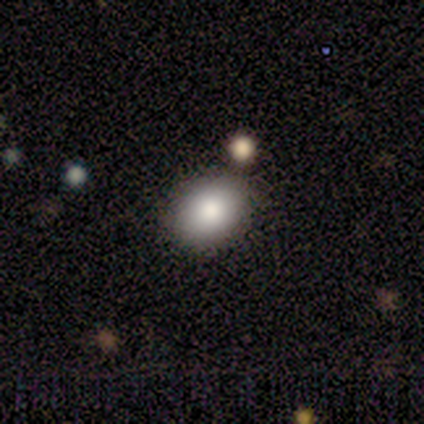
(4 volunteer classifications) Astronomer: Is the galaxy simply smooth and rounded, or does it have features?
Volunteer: smooth — 100%.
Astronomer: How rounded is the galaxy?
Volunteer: round — 50%, tied with in between at 50%.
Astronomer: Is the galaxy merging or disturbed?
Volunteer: none — 75%.